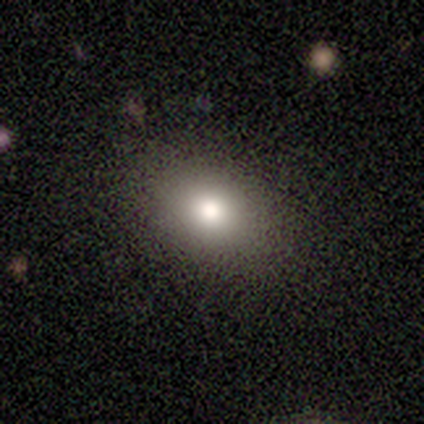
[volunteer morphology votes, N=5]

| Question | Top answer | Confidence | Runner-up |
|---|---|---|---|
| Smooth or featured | smooth | 80% | star or artifact (20%) |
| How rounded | in between | 100% | — |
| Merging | none | 100% | — |